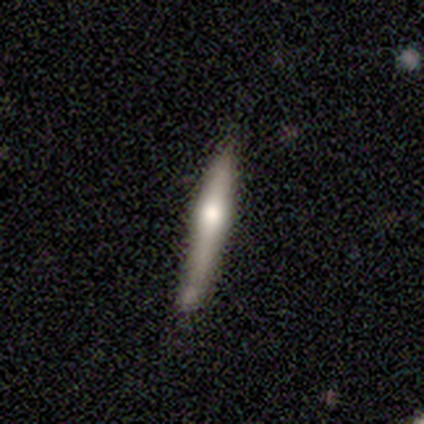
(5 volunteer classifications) A featured or disk galaxy (60%) viewed edge-on (67%) with no central bulge (50%, tied with rounded).

Vote fractions:
- Smooth or featured? featured or disk: 60% / smooth: 40% / star or artifact: 0%
- Edge-on disk? yes: 67% / no: 33%
- Edge-on bulge? none: 50% (tied) / rounded: 50% (tied) / boxy: 0%
- Merging? none: 100% / minor disturbance: 0% / major disturbance: 0% / merger: 0%